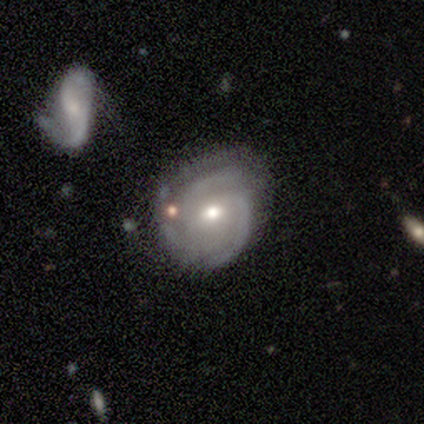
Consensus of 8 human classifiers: smooth_or_featured: featured or disk (p=1.00)
disk_edge_on: no (p=1.00)
bar: no (p=0.62) [alt: weak p=0.38]
has_spiral_arms: yes (p=0.88) [alt: no p=0.12]
spiral_winding: tight (p=0.57) [alt: medium p=0.29]
spiral_arm_count: 2 (p=0.57) [alt: 3 p=0.29]
bulge_size: moderate (p=0.62) [alt: small p=0.38]
merging: none (p=0.62) [alt: minor disturbance p=0.38]